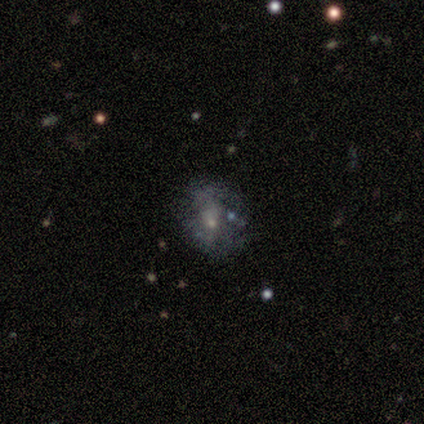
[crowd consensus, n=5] Smooth or featured? featured or disk (80%)
Edge-on disk? no (100%)
Bar? no (75%)
Spiral arms? no (100%)
Bulge size? small (100%)
Merging? minor disturbance (80%)